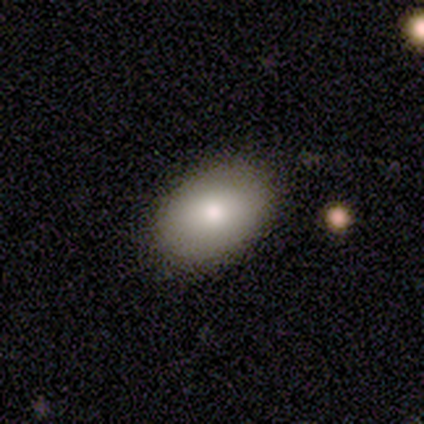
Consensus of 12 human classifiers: Smooth or featured: smooth — 83% (featured or disk — 17%)
How rounded: in between — 90% (round — 10%)
Merging: none — 92% (minor disturbance — 8%)